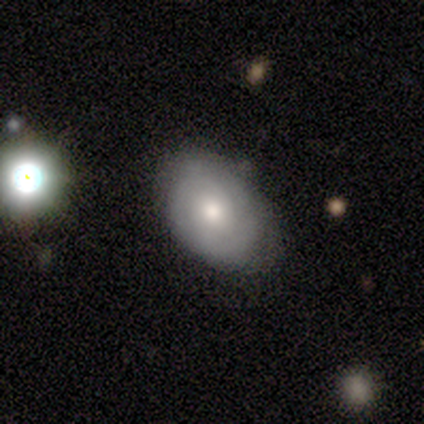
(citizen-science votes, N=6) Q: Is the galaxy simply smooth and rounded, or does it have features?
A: featured or disk — 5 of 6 (83%).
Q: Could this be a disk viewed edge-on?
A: no — 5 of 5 (100%).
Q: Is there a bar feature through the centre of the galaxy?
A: no — 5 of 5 (100%).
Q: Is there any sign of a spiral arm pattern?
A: no — 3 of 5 (60%).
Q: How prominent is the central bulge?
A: moderate — 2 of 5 (40%, tied with small).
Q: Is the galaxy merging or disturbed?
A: none — 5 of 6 (83%).